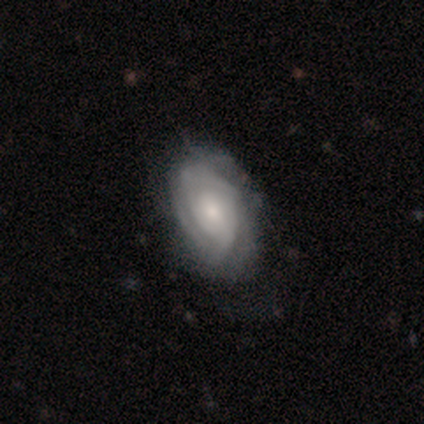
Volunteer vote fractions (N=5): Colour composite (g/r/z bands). It shows a smooth galaxy with no disk features (40%, tied with featured or disk) that is round (50%, tied with in between). Merging: none (100%).